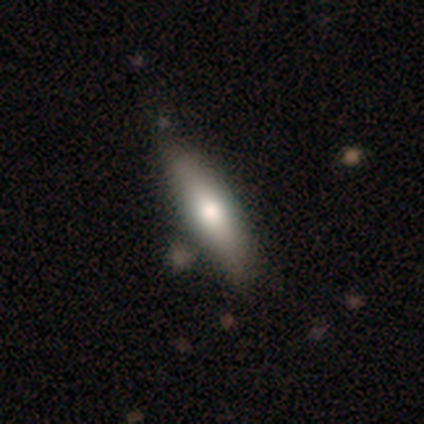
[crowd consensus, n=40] Volunteers were most divided on "smooth or featured": smooth: 57%, featured or disk: 35%, star or artifact: 8%. Remaining: how rounded — cigar-shaped (78%); merging — none (49%).